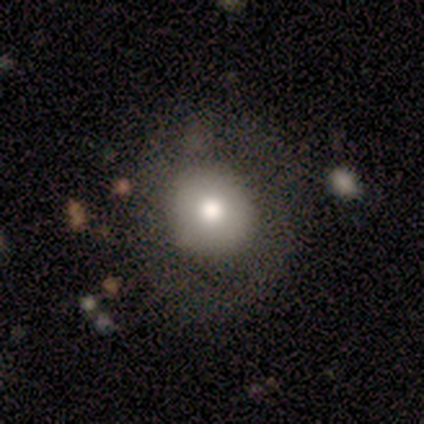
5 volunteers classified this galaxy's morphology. smooth_or_featured: smooth (p=1.00)
how_rounded: round (p=1.00)
merging: none (p=1.00)